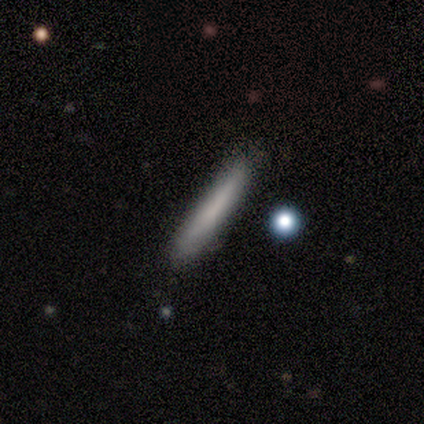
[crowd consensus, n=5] smooth 100%, featured or disk 0%, star or artifact 0%. Down the decision tree: how rounded — cigar-shaped (100%); merging — none (80%).